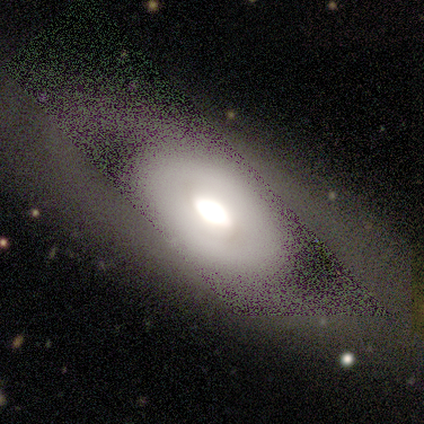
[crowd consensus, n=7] Overall: featured or disk (71%). Edge-on disk: no (80%). Bar: strong (50%, tied with no). Spiral arms: no (75%). Bulge size: large (50%; dominant 25%). Merging: none (71%).